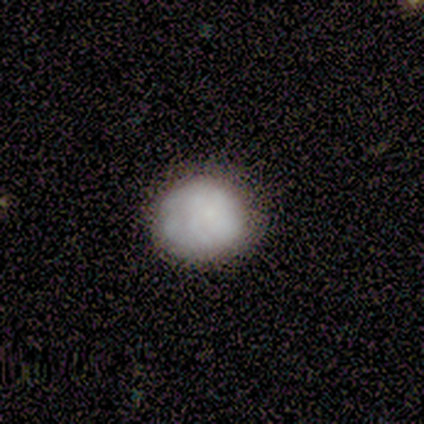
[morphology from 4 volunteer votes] A smooth galaxy with no disk features (75%) that is round (100%). Merging: none (100%).